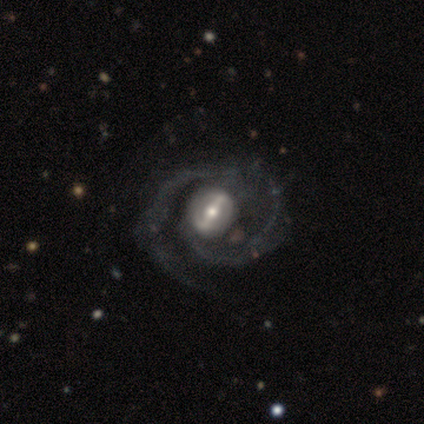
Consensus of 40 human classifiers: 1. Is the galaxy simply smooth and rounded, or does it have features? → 95% featured or disk, 2% smooth, 2% star or artifact.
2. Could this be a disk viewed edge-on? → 100% no, 0% yes.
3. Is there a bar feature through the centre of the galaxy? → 74% strong, 26% weak, 0% no.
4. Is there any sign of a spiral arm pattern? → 97% yes, 3% no.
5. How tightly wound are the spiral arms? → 54% medium, 27% tight, 19% loose.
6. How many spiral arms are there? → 81% 2, 16% 1, 3% 3, 0% 4, 0% more than 4, 0% can't tell.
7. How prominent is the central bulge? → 63% moderate, 24% small, 8% dominant, 5% large, 0% none.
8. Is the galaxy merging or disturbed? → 28% none, 15% minor disturbance, 10% major disturbance, 0% merger.